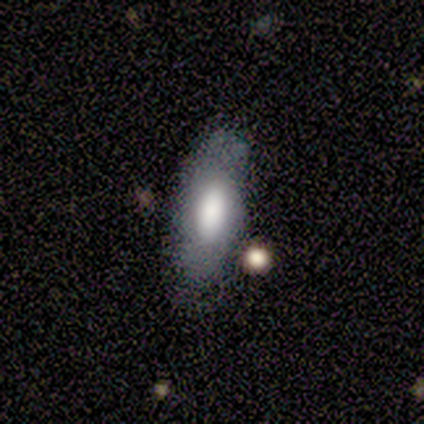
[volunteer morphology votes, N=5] Smooth or featured? smooth (100%)
How rounded? in between (100%)
Merging? none (80%)